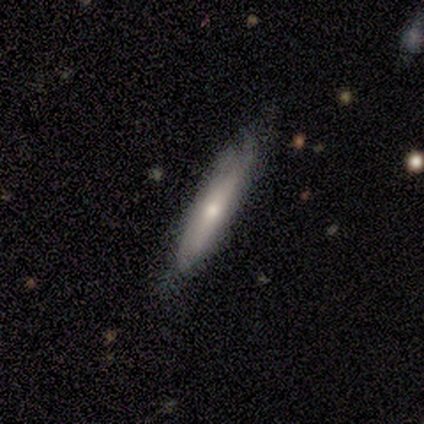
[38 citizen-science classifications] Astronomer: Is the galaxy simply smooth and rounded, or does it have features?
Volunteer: smooth — 55% (runner-up: featured or disk, 42%).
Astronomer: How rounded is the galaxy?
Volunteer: cigar-shaped — 90%.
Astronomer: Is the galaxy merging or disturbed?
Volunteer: none — 70%.